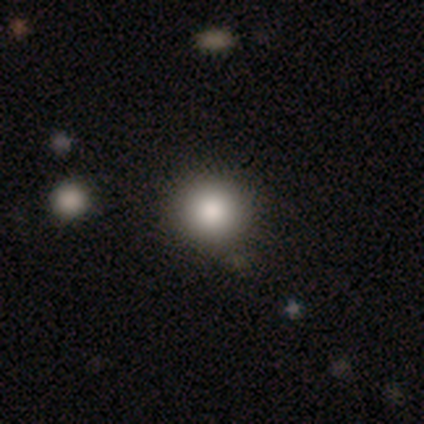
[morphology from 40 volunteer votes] A smooth galaxy with no disk features (82%) that is round (100%). Merging: none (54%).